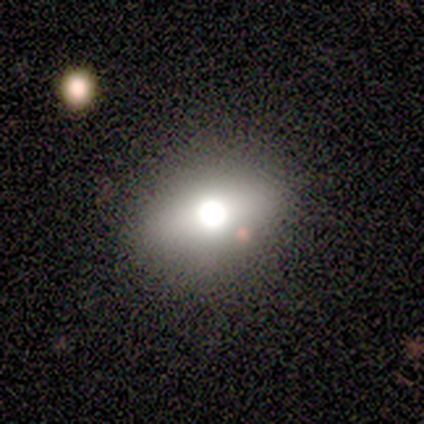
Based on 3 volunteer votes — Morphology: type=smooth (67%); roundness=round (50%, tied with in between); merging=none (33%, tied with minor disturbance and major disturbance).